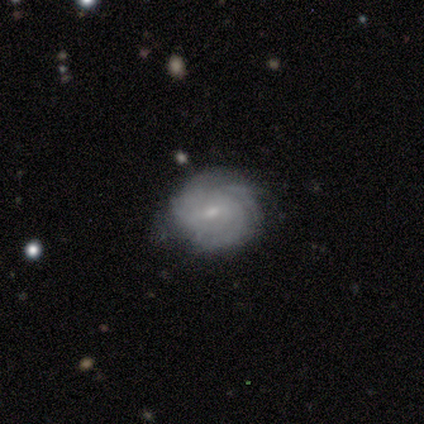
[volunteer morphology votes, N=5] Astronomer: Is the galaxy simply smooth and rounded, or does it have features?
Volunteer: featured or disk — 100%.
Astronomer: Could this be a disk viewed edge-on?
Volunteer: no — 100%.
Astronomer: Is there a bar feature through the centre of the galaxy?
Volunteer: weak — 40%, tied with no at 40%.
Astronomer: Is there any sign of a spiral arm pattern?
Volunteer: yes — 100%.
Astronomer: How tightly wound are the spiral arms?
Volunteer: tight — 80%.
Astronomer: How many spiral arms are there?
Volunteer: can't tell — 60%.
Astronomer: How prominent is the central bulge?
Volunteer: small — 80%.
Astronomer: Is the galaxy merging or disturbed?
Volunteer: none — 100%.